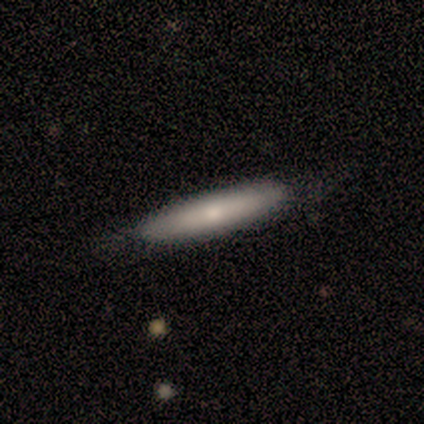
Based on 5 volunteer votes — Overall: smooth (80%). How rounded: cigar-shaped (75%). Merging: none (100%).